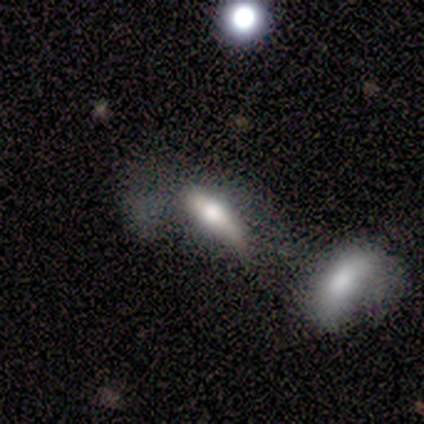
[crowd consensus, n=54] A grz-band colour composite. It shows a smooth galaxy with no disk features (56%) that is in between round and cigar-shaped (50%, tied with cigar-shaped). Merging: merger (37%).